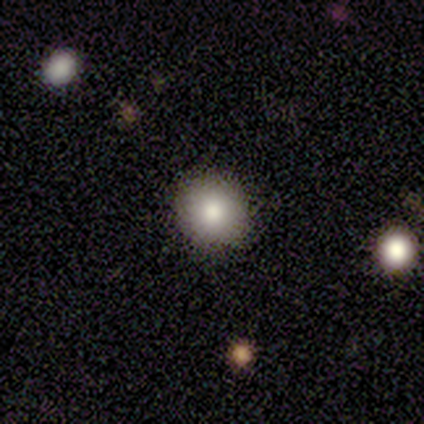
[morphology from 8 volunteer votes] Smooth or featured?
  - smooth: 100% *
  - featured or disk: 0%
  - star or artifact: 0%
How rounded?
  - round: 75% *
  - in between: 25%
  - cigar-shaped: 0%
Merging?
  - none: 88% *
  - merger: 12%
  - minor disturbance: 0%
  - major disturbance: 0%